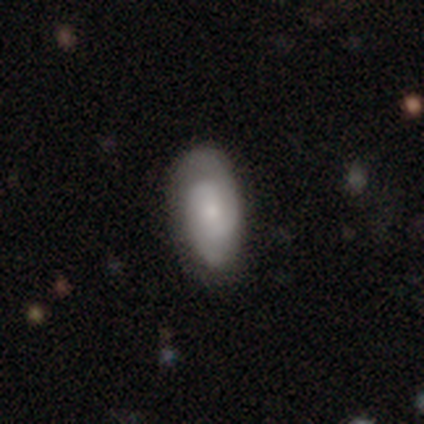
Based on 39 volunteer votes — This appears to be a featured or disk galaxy (54%) with no bar (60%), 2 (79%) medium (47%) spiral arms (95%) and a small central bulge (45%). Merging: none (69%).